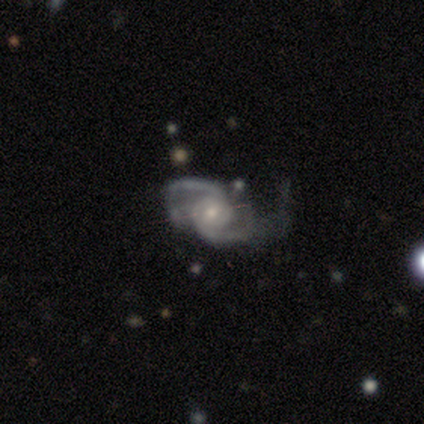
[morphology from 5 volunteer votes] Smooth or featured? featured or disk (100%)
Edge-on disk? no (100%)
Bar? no (60%)
Spiral arms? yes (100%)
Spiral winding? medium (60%)
Spiral arm count? 2 (100%)
Bulge size? small (60%)
Merging? none (60%)